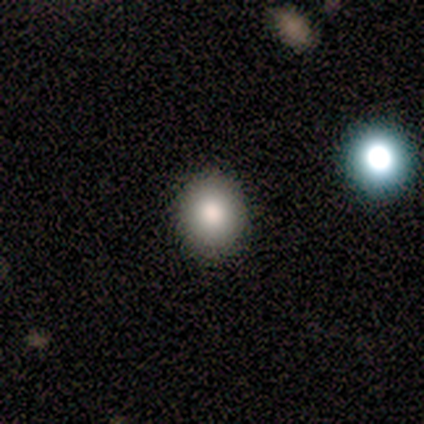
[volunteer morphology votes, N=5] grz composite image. It shows a smooth galaxy with no disk features (80%) that is round (75%). Merging: none (75%).